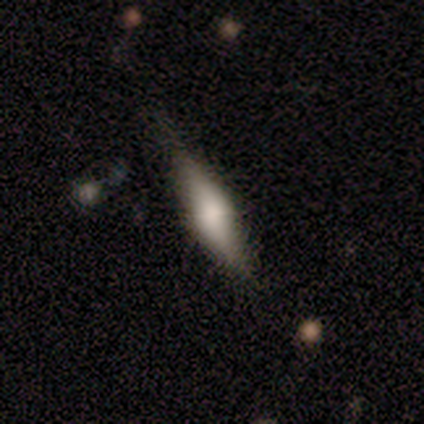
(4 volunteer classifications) A smooth galaxy with no disk features (50%, tied with featured or disk) that is in between round and cigar-shaped (100%). Merging: none (75%).